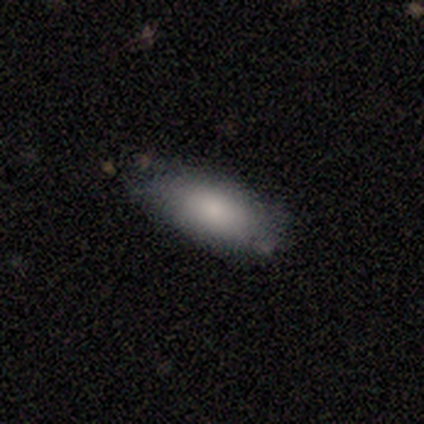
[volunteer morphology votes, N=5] smooth 100%, featured or disk 0%, star or artifact 0%. Down the decision tree: how rounded — in between (100%); merging — none (80%).